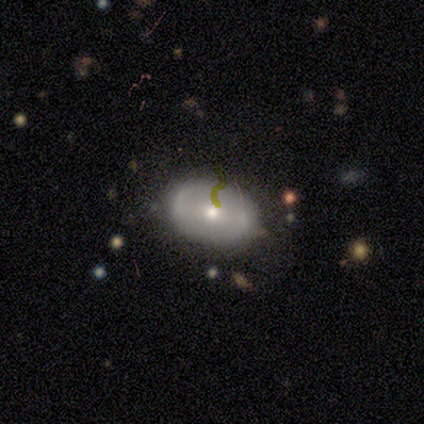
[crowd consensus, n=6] Overall: smooth (67%). How rounded: in between (75%). Merging: none (80%).